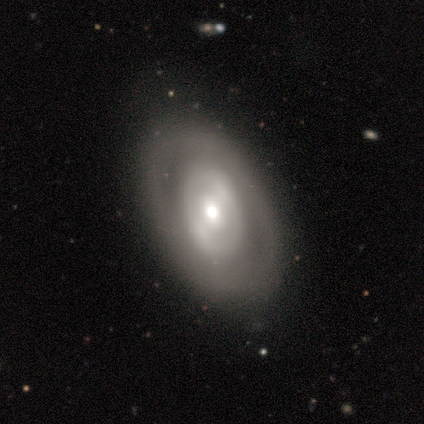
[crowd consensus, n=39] smooth-or-featured: featured or disk: 74% | smooth: 21% | star or artifact: 5%
  disk-edge-on: no: 93% | yes: 7%
    bar: no: 44% | weak: 30% | strong: 26%
    has-spiral-arms: no: 85% | yes: 15%
    bulge-size: moderate: 59% | large: 19% | small: 19% | dominant: 4% | none: 0%
  merging: none: 59% | minor disturbance: 8% | major disturbance: 3% | merger: 3%